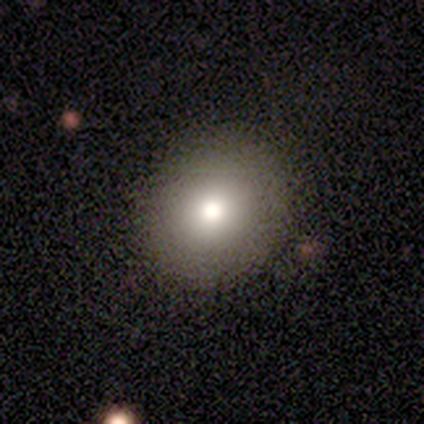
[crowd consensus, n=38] smooth_or_featured: smooth (p=0.82) [alt: star or artifact p=0.13]
how_rounded: round (p=0.87) [alt: in between p=0.10]
merging: none (p=0.85) [alt: minor disturbance p=0.12]